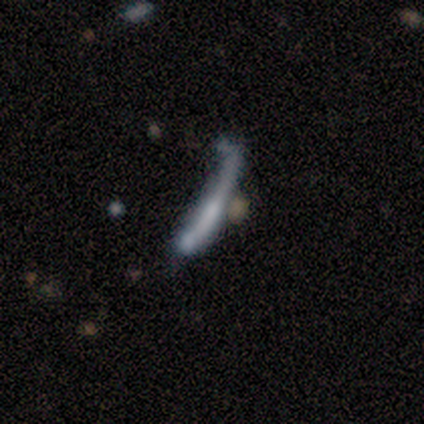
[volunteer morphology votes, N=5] This appears to be a smooth galaxy with no disk features (40%, tied with featured or disk) that is cigar-shaped (100%). Merging: major disturbance (75%).